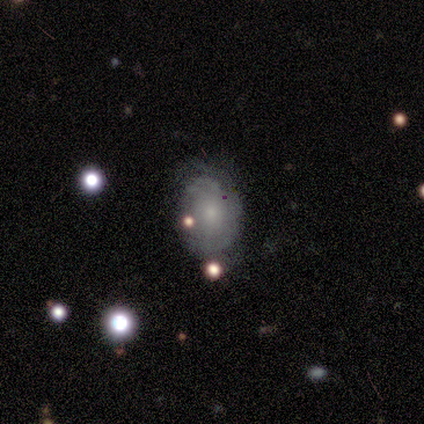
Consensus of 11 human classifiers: Volunteers were most divided on "merging" (2-way tie): none: 45%, minor disturbance: 45%, merger: 9%, major disturbance: 0%. More confident: edge-on disk — no (100%); bar — no (83%); spiral arms — yes (83%); spiral arm count — can't tell (80%); bulge size — small (67%); spiral winding — tight (60%); smooth or featured — featured or disk (55%).